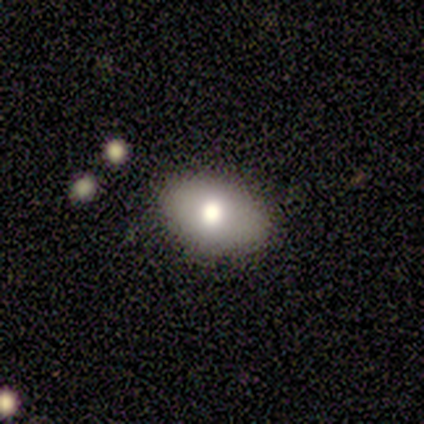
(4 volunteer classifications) A smooth galaxy with no disk features (50%, tied with featured or disk) that is in between round and cigar-shaped (100%). Merging: none (50%).